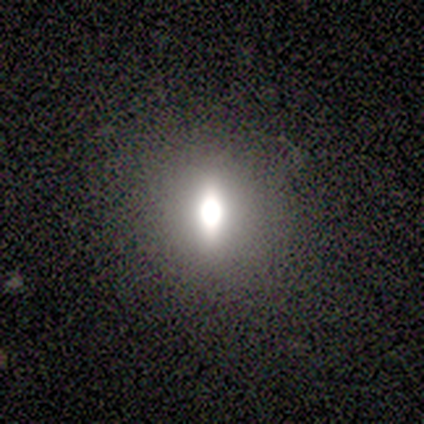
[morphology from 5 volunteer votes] Smooth or featured: smooth — 60% (featured or disk — 20%)
How rounded: in between — 67% (round — 33%)
Merging: none — 100%